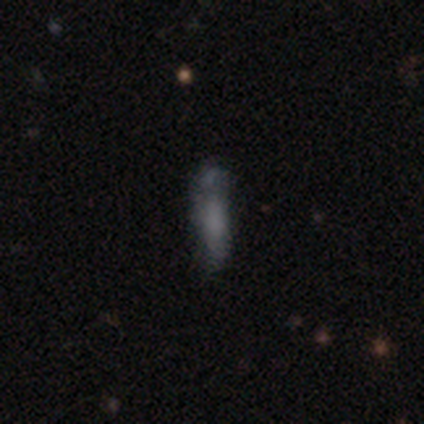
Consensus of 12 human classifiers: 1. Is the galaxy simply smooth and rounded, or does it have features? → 83% smooth, 17% featured or disk, 0% star or artifact.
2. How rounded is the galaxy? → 100% cigar-shaped, 0% round, 0% in between.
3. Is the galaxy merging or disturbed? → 50% none, 25% minor disturbance, 25% merger, 0% major disturbance.